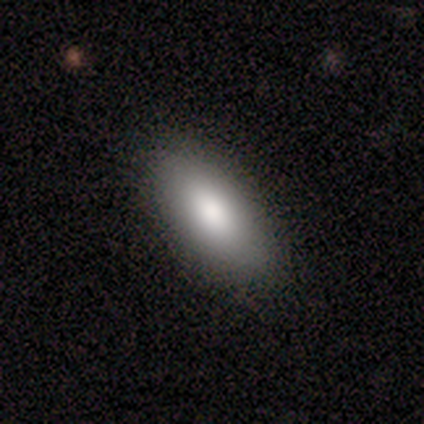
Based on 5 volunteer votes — smooth-or-featured: smooth: 100% | featured or disk: 0% | star or artifact: 0%
  how-rounded: in between: 100% | round: 0% | cigar-shaped: 0%
  merging: none: 100% | minor disturbance: 0% | major disturbance: 0% | merger: 0%